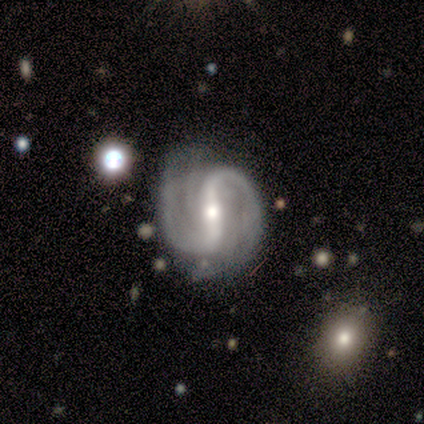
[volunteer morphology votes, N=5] Smooth or featured: featured or disk — 100%
Edge-on disk: no — 100%
Bar: strong — 80% (weak — 20%)
Spiral arms: yes — 100%
Spiral winding: medium — 100%
Spiral arm count: 2 — 80% (4 — 20%)
Bulge size: moderate — 100%
Merging: none — 60% (minor disturbance — 20%)